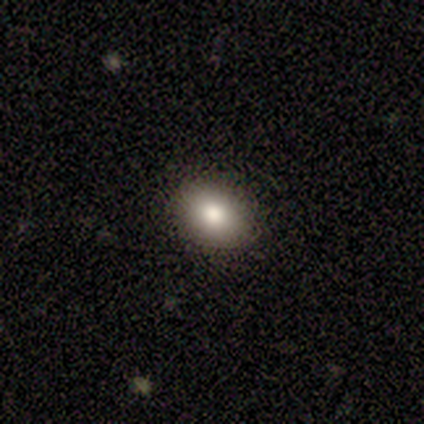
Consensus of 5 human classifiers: Morphology: type=smooth (60%); roundness=round (100%); merging=none (100%).